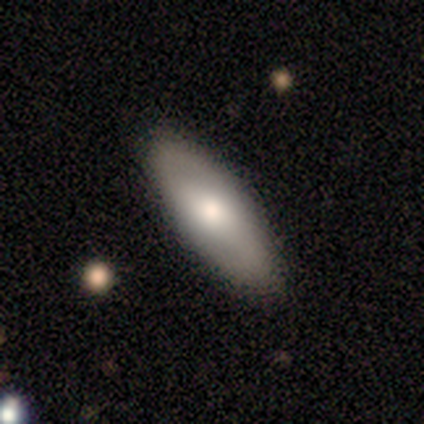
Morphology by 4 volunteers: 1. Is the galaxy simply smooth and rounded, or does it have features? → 75% smooth, 25% featured or disk, 0% star or artifact.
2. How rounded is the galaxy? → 67% in between, 33% cigar-shaped, 0% round.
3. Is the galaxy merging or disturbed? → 100% none, 0% minor disturbance, 0% major disturbance, 0% merger.